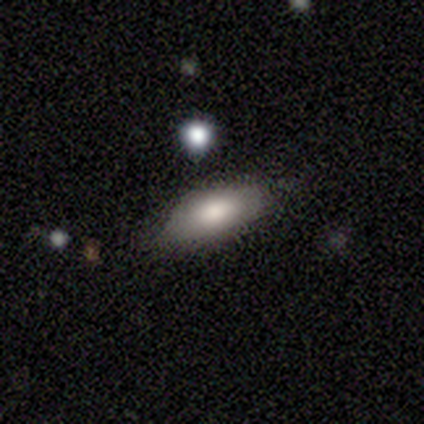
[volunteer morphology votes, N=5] smooth_or_featured: smooth (p=1.00)
how_rounded: in between (p=1.00)
merging: none (p=0.40) [tied with: major disturbance p=0.40]